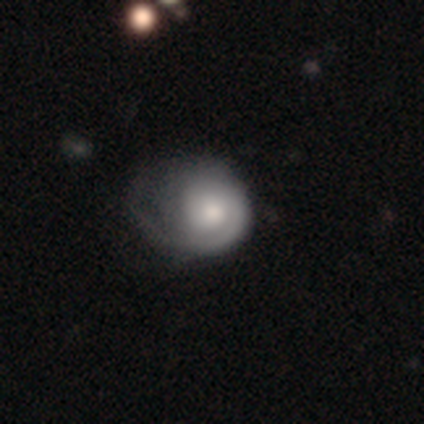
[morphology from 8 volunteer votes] type=featured or disk (50%); edge-on=no (100%); bar=no (75%); spiral arms=yes (100%); winding=tight (50%); arm count=1 (100%); bulge=moderate (75%); merging=major disturbance (43%).